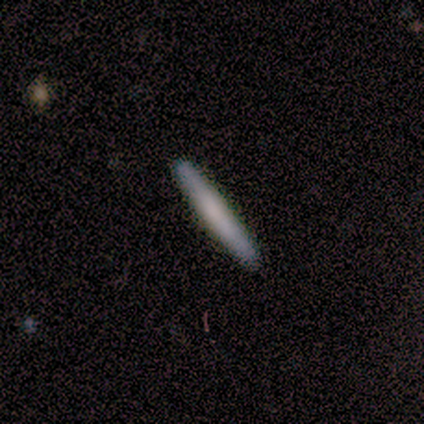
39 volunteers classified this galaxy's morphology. Smooth or featured: smooth — 62% (featured or disk — 33%)
How rounded: cigar-shaped — 96% (in between — 4%)
Merging: none — 97% (minor disturbance — 3%)